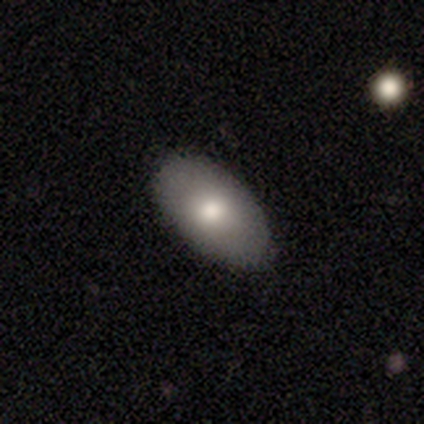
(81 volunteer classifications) Overall: smooth (79%). How rounded: in between (94%). Merging: none (86%).